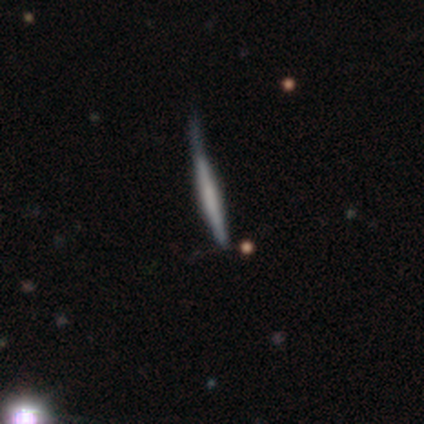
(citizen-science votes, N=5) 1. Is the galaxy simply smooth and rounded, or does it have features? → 80% smooth, 20% featured or disk, 0% star or artifact.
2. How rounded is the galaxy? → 100% cigar-shaped, 0% round, 0% in between.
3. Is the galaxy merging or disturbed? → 80% minor disturbance, 20% none, 0% major disturbance, 0% merger.